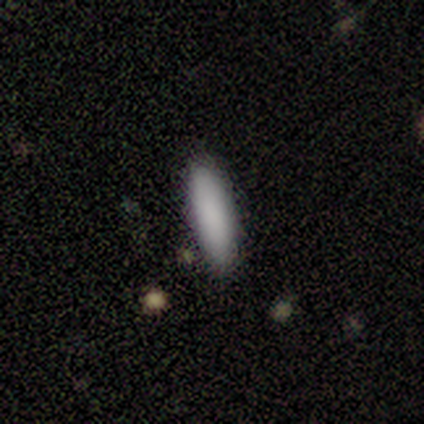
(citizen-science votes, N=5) Volunteers were most divided on "merging": none: 60%, minor disturbance: 40%, major disturbance: 0%, merger: 0%. More confident: smooth or featured — smooth (100%); how rounded — cigar-shaped (80%).